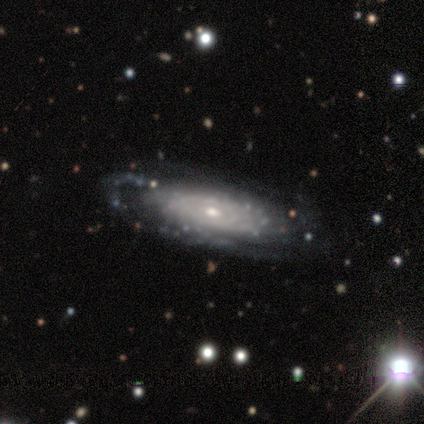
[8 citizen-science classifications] Volunteers were most divided on "bulge size" (2-way tie): moderate: 40%, small: 40%, large: 20%, dominant: 0%, none: 0%. More confident: bar — no (100%); spiral arms — yes (100%); spiral winding — tight (100%); merging — none (100%); smooth or featured — featured or disk (88%); spiral arm count — can't tell (80%); edge-on disk — no (71%).